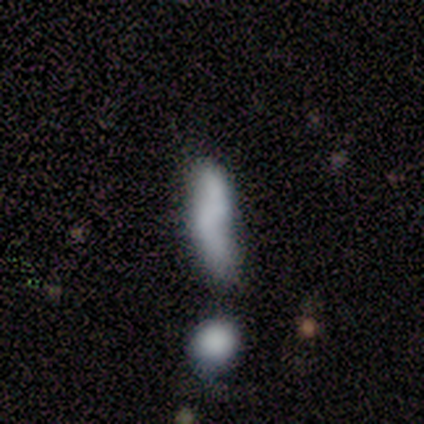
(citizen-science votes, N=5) Q: Smooth or featured?
A: featured or disk (80%); runner-up: smooth (20%)
Q: Edge-on disk?
A: yes (50%); tied with: no (50%)
Q: Edge-on bulge?
A: none (100%)
Q: Merging?
A: merger (80%); runner-up: minor disturbance (20%)